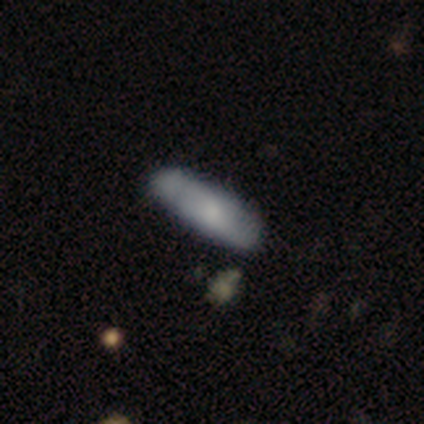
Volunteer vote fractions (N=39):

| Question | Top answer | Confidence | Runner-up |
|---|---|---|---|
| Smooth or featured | smooth | 67% | featured or disk (23%) |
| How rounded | cigar-shaped | 65% | in between (35%) |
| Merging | none | 69% | minor disturbance (23%) |